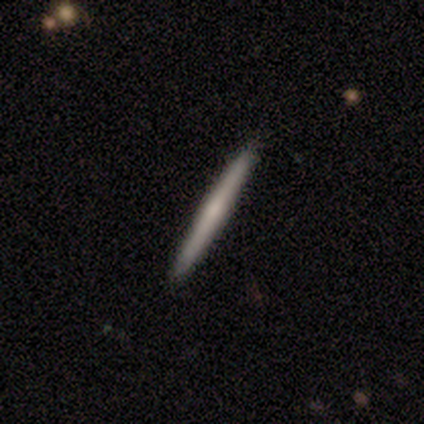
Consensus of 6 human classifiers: smooth_or_featured: featured or disk (p=0.67) [alt: smooth p=0.33]
disk_edge_on: yes (p=1.00)
edge_on_bulge: none (p=0.75) [alt: rounded p=0.25]
merging: none (p=1.00)